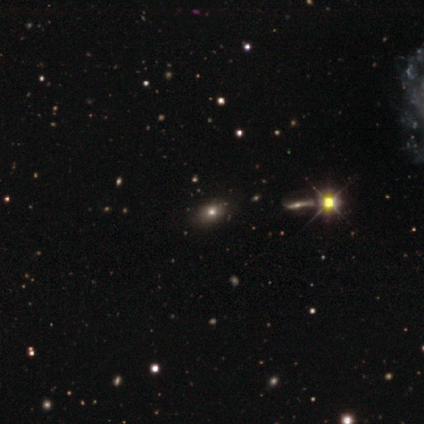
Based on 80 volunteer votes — Smooth or featured? smooth (55%)
How rounded? in between (68%)
Merging? none (36%)